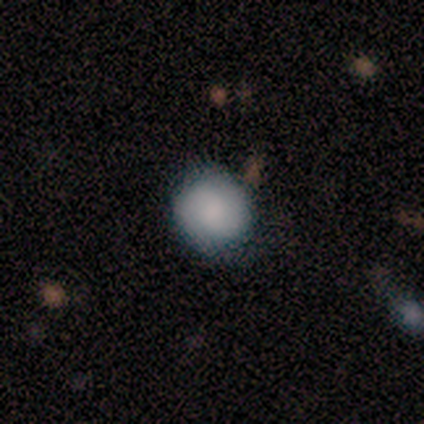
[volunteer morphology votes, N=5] A smooth galaxy with no disk features (80%) that is round (100%).

Vote fractions:
- Smooth or featured? smooth: 80% / featured or disk: 20% / star or artifact: 0%
- How rounded? round: 100% / in between: 0% / cigar-shaped: 0%
- Merging? none: 80% / minor disturbance: 20% / major disturbance: 0% / merger: 0%